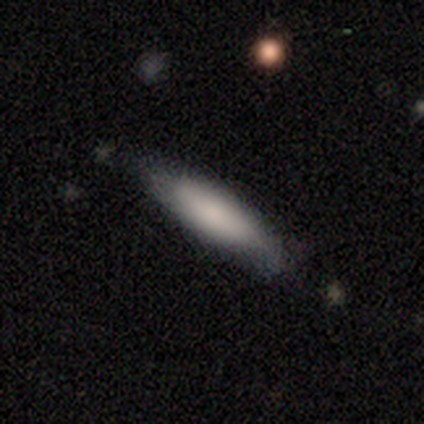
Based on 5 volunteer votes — Smooth or featured? smooth (100%)
How rounded? cigar-shaped (80%)
Merging? none (100%)